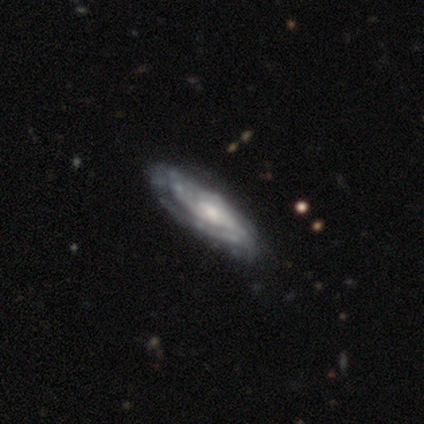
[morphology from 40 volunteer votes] smooth_or_featured: featured or disk (p=0.90) [alt: smooth p=0.10]
disk_edge_on: no (p=0.81) [alt: yes p=0.19]
bar: no (p=0.59) [alt: weak p=0.34]
has_spiral_arms: yes (p=0.93) [alt: no p=0.07]
spiral_winding: tight (p=0.74) [alt: medium p=0.19]
spiral_arm_count: can't tell (p=0.52) [alt: 2 p=0.26]
bulge_size: moderate (p=0.45) [alt: small p=0.34]
merging: none (p=0.53) [alt: minor disturbance p=0.07]